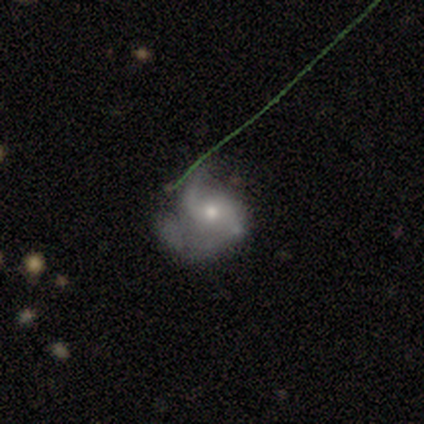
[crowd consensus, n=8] Smooth or featured: featured or disk — 88% (star or artifact — 12%)
Edge-on disk: no — 100%
Bar: no — 100%
Spiral arms: yes — 100%
Spiral winding: medium — 43% (tight — 29%)
Spiral arm count: 2 — 57% (1 — 29%)
Bulge size: moderate — 43% (tied with small — 43%)
Merging: minor disturbance — 57% (none — 43%)